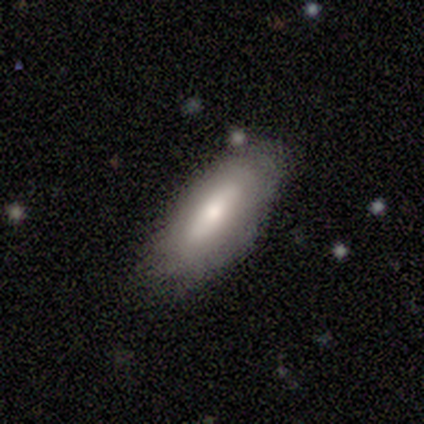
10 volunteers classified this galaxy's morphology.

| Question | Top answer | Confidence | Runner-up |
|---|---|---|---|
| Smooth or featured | smooth | 70% | featured or disk (30%) |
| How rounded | in between | 100% | — |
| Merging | none | 70% | minor disturbance (10%) |